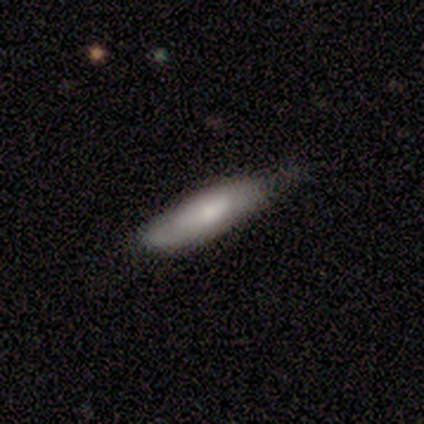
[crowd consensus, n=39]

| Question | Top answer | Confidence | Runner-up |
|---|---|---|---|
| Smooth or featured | smooth | 67% | featured or disk (21%) |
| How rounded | cigar-shaped | 62% | in between (31%) |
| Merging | none | 71% | minor disturbance (26%) |